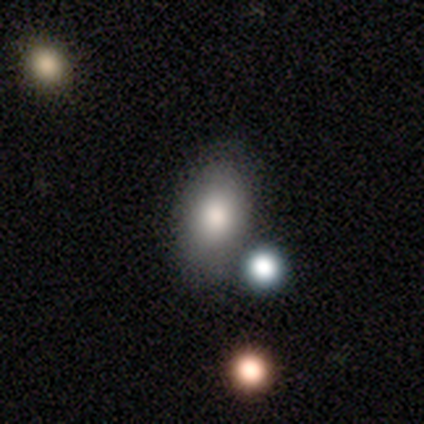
Smooth or featured: smooth — 86% (featured or disk — 8%)
How rounded: in between — 87% (round — 10%)
Merging: none — 74% (minor disturbance — 15%)